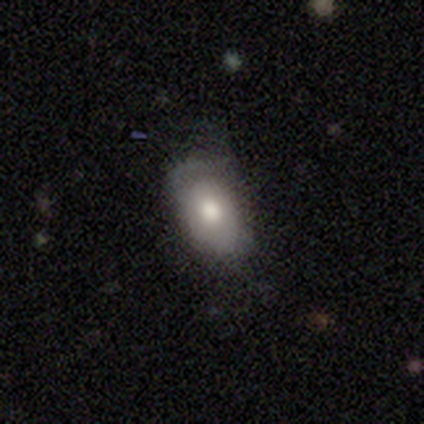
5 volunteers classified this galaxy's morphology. smooth-or-featured: smooth: 60% | featured or disk: 40% | star or artifact: 0%
  how-rounded: in between: 100% | round: 0% | cigar-shaped: 0%
  merging: minor disturbance: 40% (tied) | major disturbance: 40% (tied) | none: 20% | merger: 0%